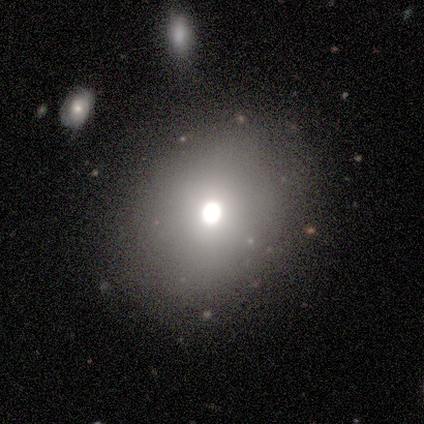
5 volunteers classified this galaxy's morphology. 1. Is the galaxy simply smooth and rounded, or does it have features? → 100% smooth, 0% featured or disk, 0% star or artifact.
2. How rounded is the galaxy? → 60% in between, 40% round, 0% cigar-shaped.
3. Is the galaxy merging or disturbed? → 100% none, 0% minor disturbance, 0% major disturbance, 0% merger.